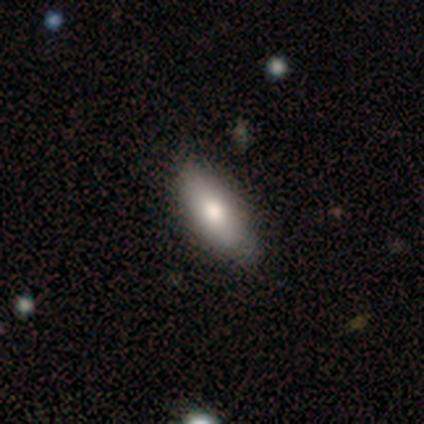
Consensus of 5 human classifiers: smooth-or-featured: smooth: 80% | featured or disk: 20% | star or artifact: 0%
  how-rounded: in between: 100% | round: 0% | cigar-shaped: 0%
  merging: none: 100% | minor disturbance: 0% | major disturbance: 0% | merger: 0%